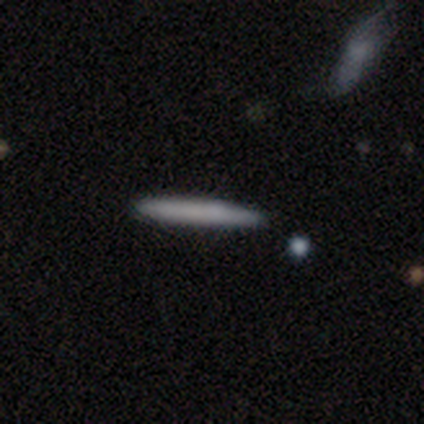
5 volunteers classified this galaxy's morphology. This appears to be a smooth galaxy with no disk features (80%) that is cigar-shaped (100%). Merging: none (100%).